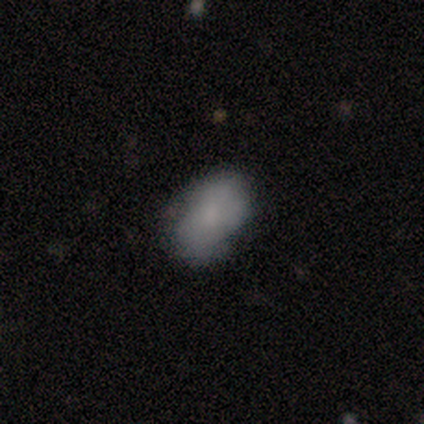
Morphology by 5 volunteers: smooth-or-featured: smooth: 80% | featured or disk: 20% | star or artifact: 0%
  how-rounded: in between: 100% | round: 0% | cigar-shaped: 0%
  merging: none: 60% | minor disturbance: 20% | major disturbance: 20% | merger: 0%